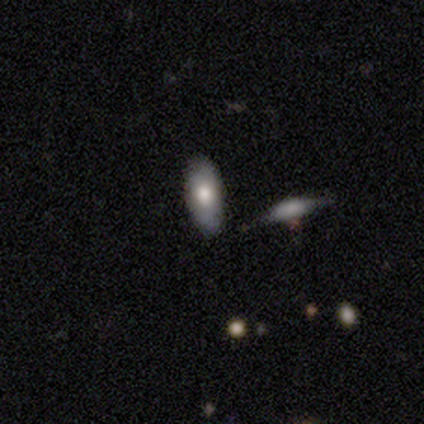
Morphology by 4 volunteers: Smooth or featured: smooth — 50% (tied with featured or disk — 50%)
How rounded: in between — 100%
Merging: none — 75% (minor disturbance — 25%)